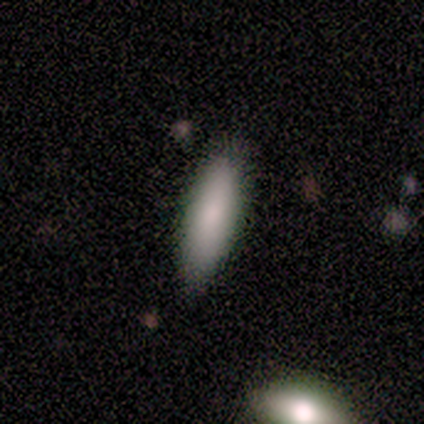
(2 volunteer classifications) Overall: smooth (100%). How rounded: cigar-shaped (100%). Merging: none (100%).